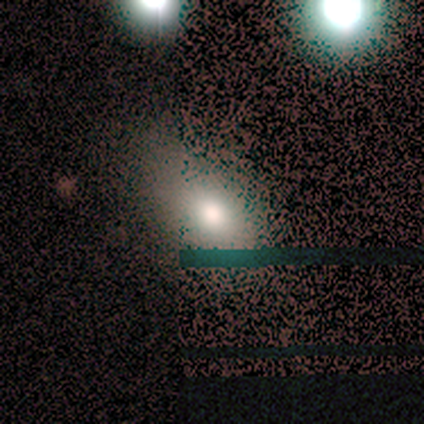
Morphology: type=smooth (80%); roundness=in between (75%); merging=none (100%).